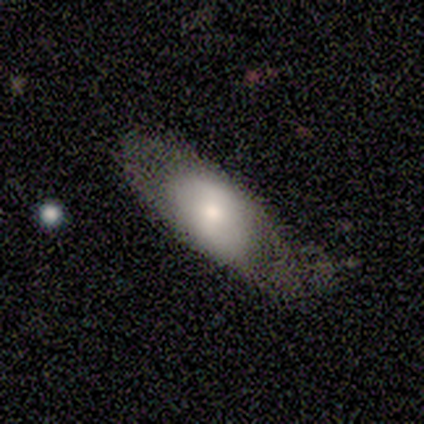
Morphology: type=smooth (100%); roundness=in between (100%); merging=none (75%).